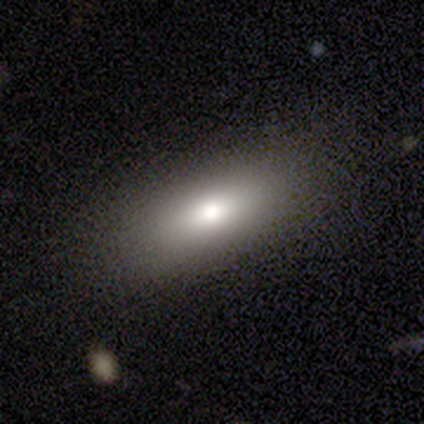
Smooth or featured: smooth — 100%
How rounded: in between — 80% (cigar-shaped — 20%)
Merging: none — 100%